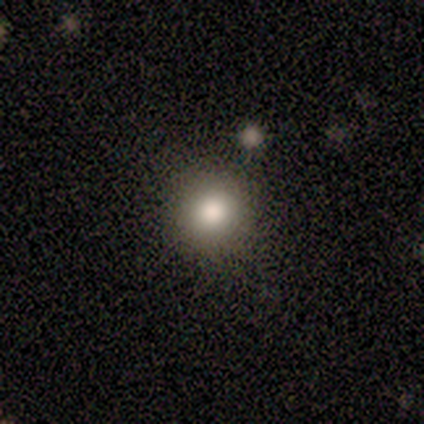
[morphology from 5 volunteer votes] smooth 80%, featured or disk 20%, star or artifact 0%. Down the decision tree: how rounded — round (100%); merging — none (80%).